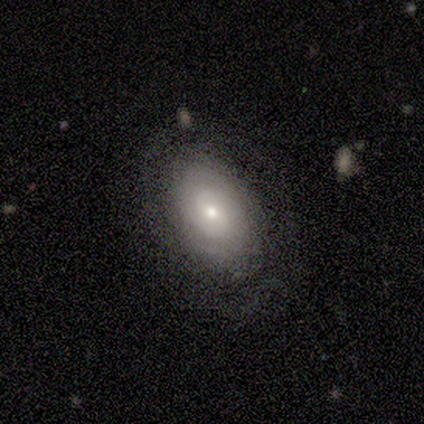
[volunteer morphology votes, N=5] type=featured or disk (80%); edge-on=no (75%); bar=no (100%); spiral arms=yes (67%); winding=tight (100%); arm count=2 (50%, tied with can't tell); bulge=large (33%, tied with moderate and small); merging=none (60%).